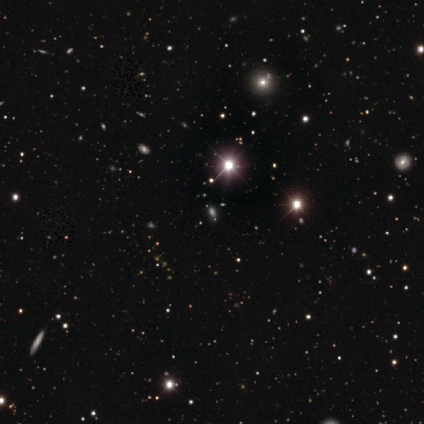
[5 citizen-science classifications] Volunteers were most divided on "smooth or featured": star or artifact: 80%, smooth: 20%, featured or disk: 0%.